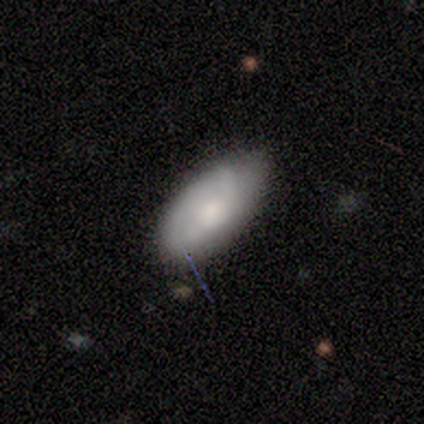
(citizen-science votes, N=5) A smooth galaxy with no disk features (80%) that is in between round and cigar-shaped (100%).

Vote fractions:
- Smooth or featured? smooth: 80% / featured or disk: 20% / star or artifact: 0%
- How rounded? in between: 100% / round: 0% / cigar-shaped: 0%
- Merging? minor disturbance: 60% / none: 40% / major disturbance: 0% / merger: 0%